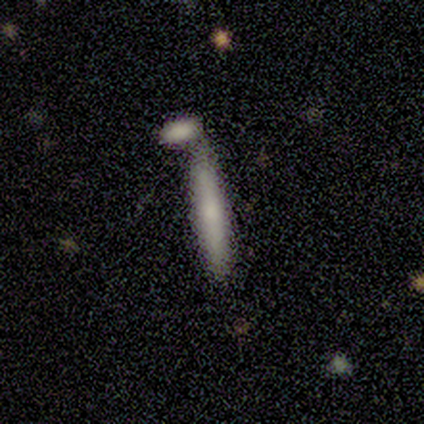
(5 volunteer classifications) Q: Smooth or featured?
A: smooth (100%)
Q: How rounded?
A: cigar-shaped (100%)
Q: Merging?
A: none (40%); tied with: merger (40%)